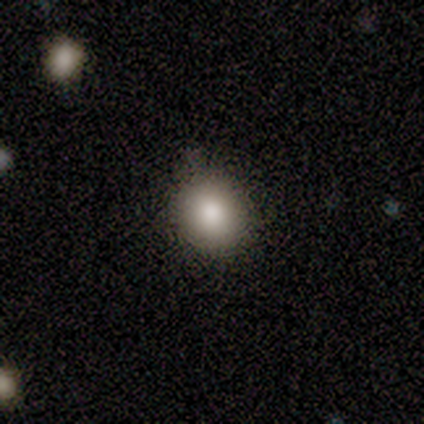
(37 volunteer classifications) This appears to be a smooth galaxy with no disk features (86%) that is round (78%). Merging: none (74%).